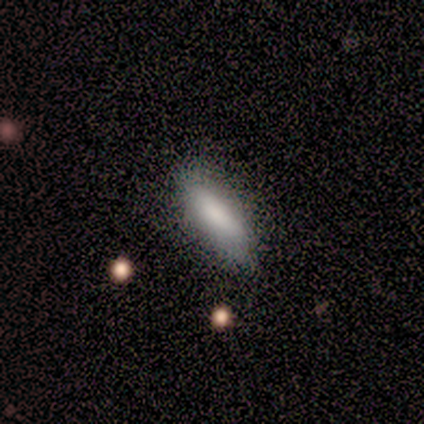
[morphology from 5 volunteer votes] Volunteers were most divided on "merging": none: 80%, minor disturbance: 20%, major disturbance: 0%, merger: 0%. More confident: smooth or featured — smooth (100%); how rounded — in between (100%).